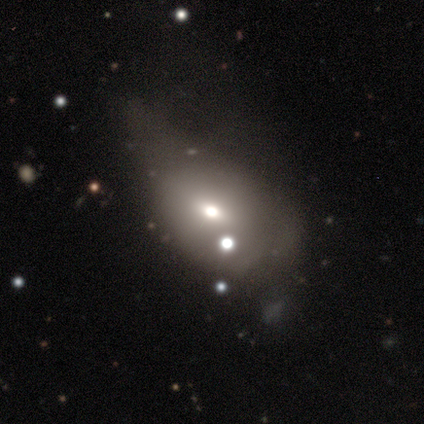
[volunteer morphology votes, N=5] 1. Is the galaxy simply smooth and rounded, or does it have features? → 80% smooth, 20% featured or disk, 0% star or artifact.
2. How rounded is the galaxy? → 50% round (tied), 50% in between (tied), 0% cigar-shaped.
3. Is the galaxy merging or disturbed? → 60% major disturbance, 20% none, 20% merger, 0% minor disturbance.